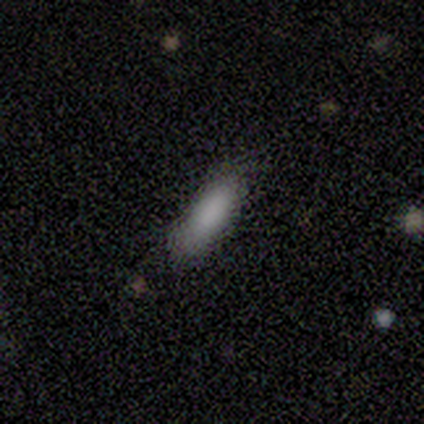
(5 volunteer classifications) A smooth galaxy with no disk features (80%) that is in between round and cigar-shaped (50%, tied with cigar-shaped). Merging: none (60%).